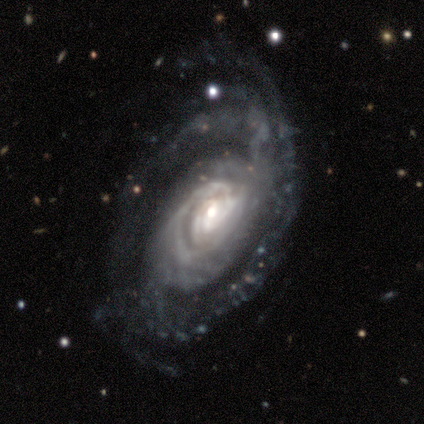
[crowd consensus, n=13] This is clearly a featured or disk galaxy (92%). It is clearly not viewed edge-on (100%). Bar: possibly no (58%). Spiral arm pattern: clearly yes (83%). Spiral arm count: likely can't tell (60%). Spiral winding: possibly tight (50%). Central bulge: marginally moderate (42%). Merging: marginally none (38%, tied with minor disturbance).